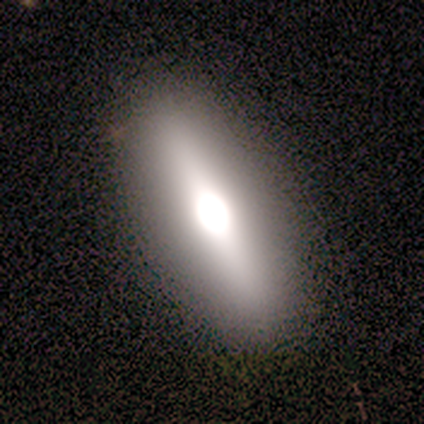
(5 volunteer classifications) Morphology: type=featured or disk (60%); edge-on=yes (67%); edge-on bulge=rounded (100%); merging=none (100%).